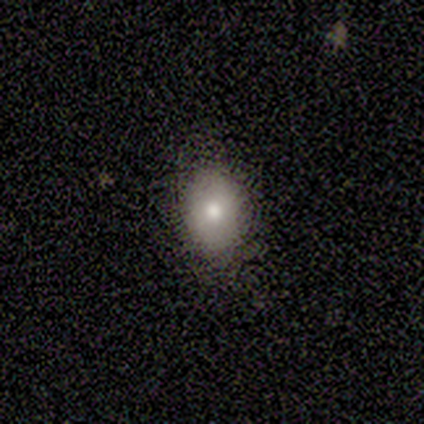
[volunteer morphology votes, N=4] A smooth galaxy with no disk features (75%) that is in between round and cigar-shaped (100%). Merging: none (50%).